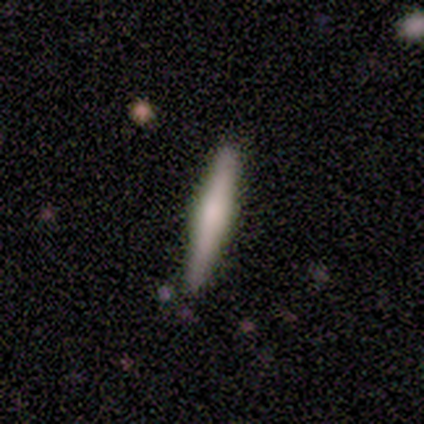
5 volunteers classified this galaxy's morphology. Q: Smooth or featured?
A: smooth (60%); runner-up: featured or disk (40%)
Q: How rounded?
A: cigar-shaped (100%)
Q: Merging?
A: none (80%); runner-up: minor disturbance (20%)